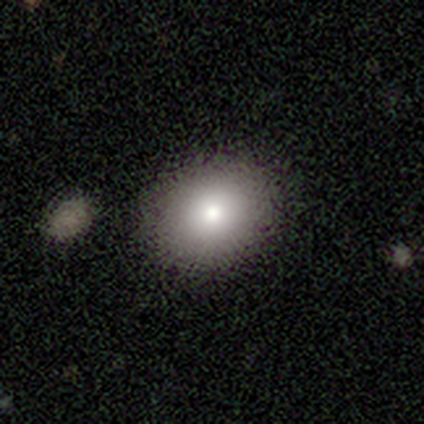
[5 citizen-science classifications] smooth-or-featured: smooth: 80% | featured or disk: 20% | star or artifact: 0%
  how-rounded: round: 75% | in between: 25% | cigar-shaped: 0%
  merging: none: 100% | minor disturbance: 0% | major disturbance: 0% | merger: 0%